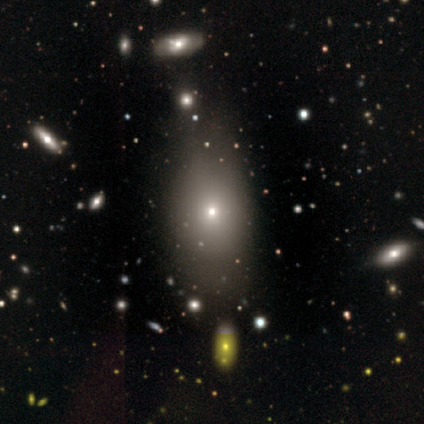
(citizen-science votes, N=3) A smooth galaxy with no disk features (100%) that is in between round and cigar-shaped (100%). Merging: none (33%, tied with minor disturbance and major disturbance).